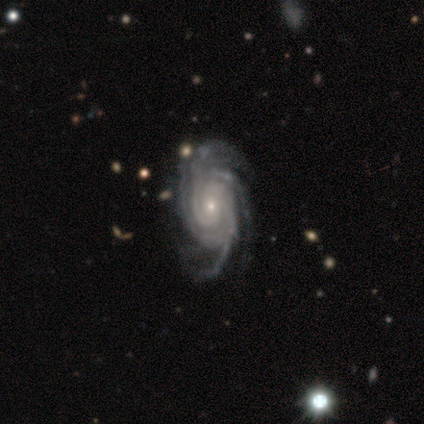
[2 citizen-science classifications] featured or disk 100%, smooth 0%, star or artifact 0%. Down the decision tree: edge-on disk — no (100%); bar — no (100%); spiral arms — yes (100%); spiral arm count — 2 (50%, tied with 4); spiral winding — medium (100%); bulge size — small (100%); merging — none (50%, tied with major disturbance).